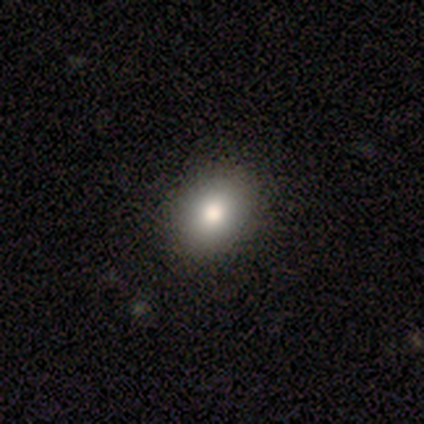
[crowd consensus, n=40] smooth-or-featured: smooth: 62% | star or artifact: 22% | featured or disk: 15%
  how-rounded: in between: 60% | round: 40% | cigar-shaped: 0%
  merging: none: 94% | minor disturbance: 6% | major disturbance: 0% | merger: 0%